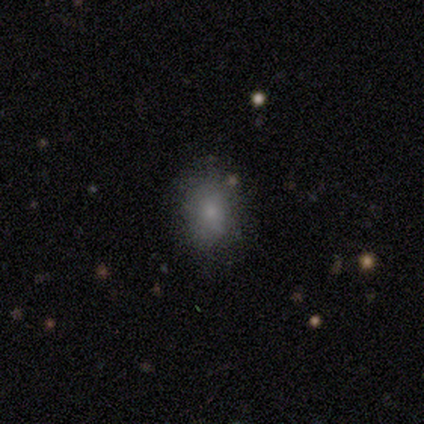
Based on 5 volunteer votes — This is clearly a smooth galaxy (100%). How rounded: likely in between (60%). Merging: clearly none (80%).